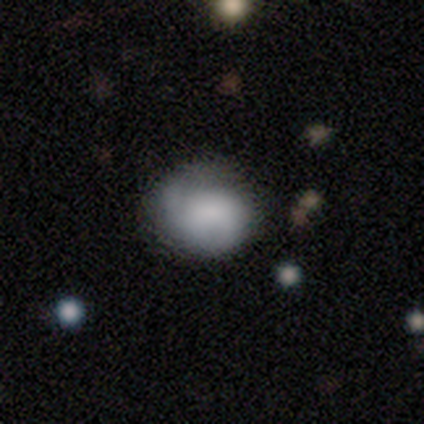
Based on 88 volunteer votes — This is likely a smooth galaxy (62%). How rounded: likely round (78%). Merging: possibly none (55%).